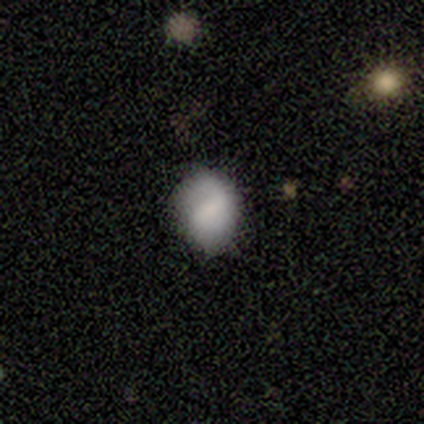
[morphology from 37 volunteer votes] Volunteers were most divided on "how rounded": round: 56%, in between: 44%, cigar-shaped: 0%. More confident: smooth or featured — smooth (73%); merging — none (72%).